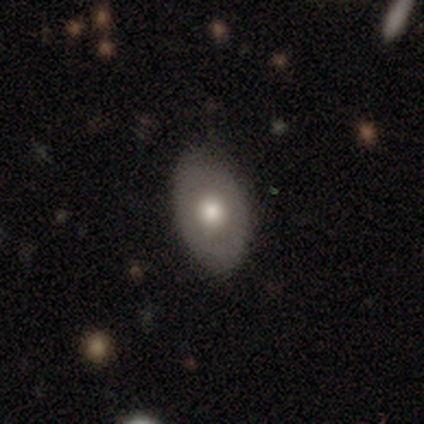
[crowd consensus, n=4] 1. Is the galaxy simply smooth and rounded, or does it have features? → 75% smooth, 25% featured or disk, 0% star or artifact.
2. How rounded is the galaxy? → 100% in between, 0% round, 0% cigar-shaped.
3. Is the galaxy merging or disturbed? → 100% none, 0% minor disturbance, 0% major disturbance, 0% merger.